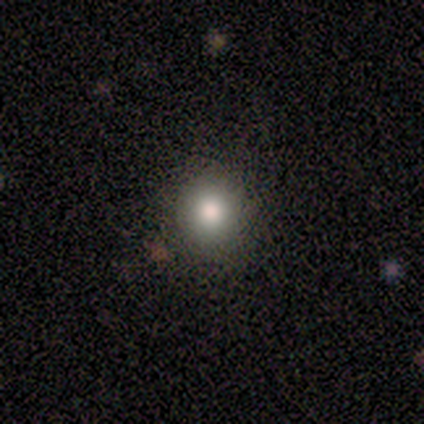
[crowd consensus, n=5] Morphology: type=smooth (100%); roundness=round (100%); merging=none (80%).